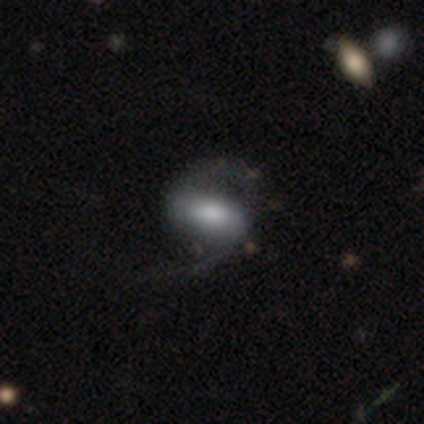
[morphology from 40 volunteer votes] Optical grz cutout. It shows a featured or disk galaxy (65%) with a strong bar (56%), 2 (96%) loose (71%) spiral arms (96%) and a moderate central bulge (68%). Merging: none (48%).